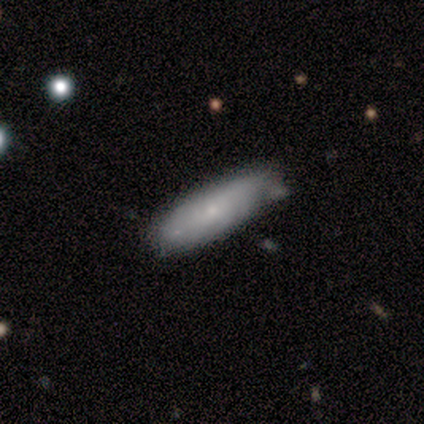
A featured or disk galaxy (60%) with no bar (100%), 2 (50%, tied with can't tell) tight (50%, tied with medium) spiral arms (67%) and a small central bulge (100%).

Vote fractions:
- Smooth or featured? featured or disk: 60% / smooth: 40% / star or artifact: 0%
- Edge-on disk? no: 100% / yes: 0%
- Bar? no: 100% / strong: 0% / weak: 0%
- Spiral arms? yes: 67% / no: 33%
- Spiral winding? tight: 50% (tied) / medium: 50% (tied) / loose: 0%
- Spiral arm count? 2: 50% (tied) / can't tell: 50% (tied) / 1: 0% / 3: 0% / 4: 0% / more than 4: 0%
- Bulge size? small: 100% / dominant: 0% / large: 0% / moderate: 0% / none: 0%
- Merging? minor disturbance: 60% / none: 20% / major disturbance: 20% / merger: 0%